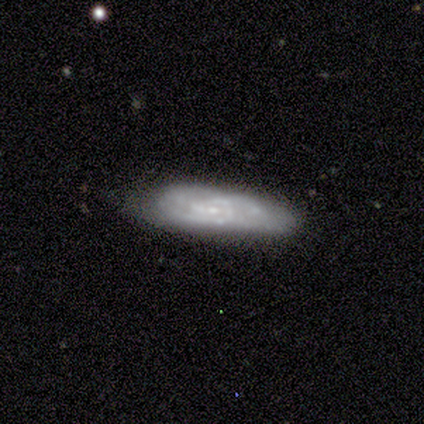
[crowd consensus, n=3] featured or disk 100%, smooth 0%, star or artifact 0%. Down the decision tree: edge-on disk — no (100%); bar — weak (67%); spiral arms — yes (67%); spiral arm count — 2 (50%, tied with can't tell); spiral winding — medium (50%, tied with loose); bulge size — small (67%); merging — none (67%).